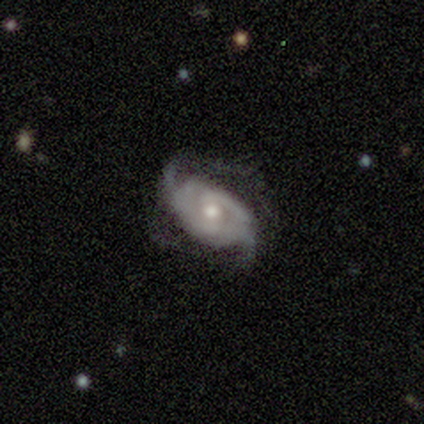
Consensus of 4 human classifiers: featured or disk 100%, smooth 0%, star or artifact 0%. Down the decision tree: edge-on disk — no (100%); bar — no (100%); spiral arms — yes (100%); spiral arm count — 2 (50%); spiral winding — tight (50%, tied with medium); bulge size — moderate (100%); merging — none (100%).